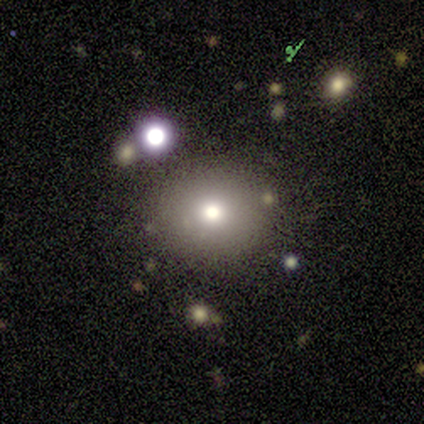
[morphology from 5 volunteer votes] This appears to be a smooth galaxy with no disk features (80%) that is round (100%). Merging: none (100%).